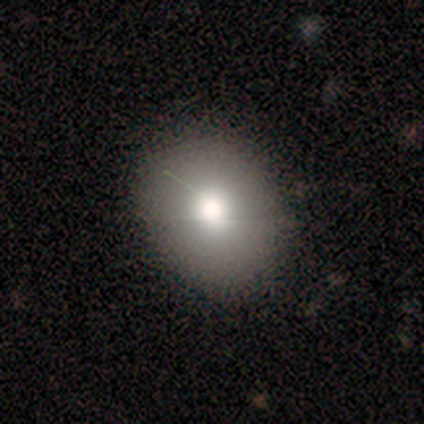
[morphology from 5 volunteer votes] This is likely a smooth galaxy (60%). How rounded: likely round (67%). Merging: likely none (75%).